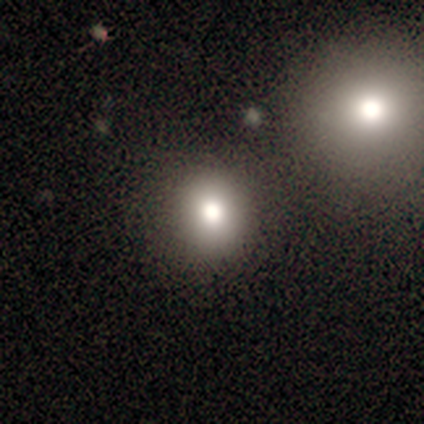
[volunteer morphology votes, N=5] Overall: smooth (100%). How rounded: round (60%; in between 40%). Merging: none (80%).